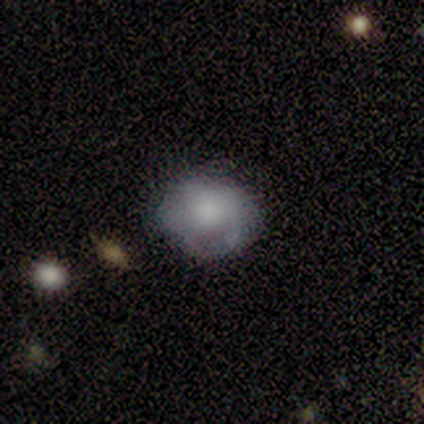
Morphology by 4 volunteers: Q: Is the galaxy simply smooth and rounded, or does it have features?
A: smooth — 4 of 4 (100%).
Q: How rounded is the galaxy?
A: round — 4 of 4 (100%).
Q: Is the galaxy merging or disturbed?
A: none — 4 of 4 (100%).